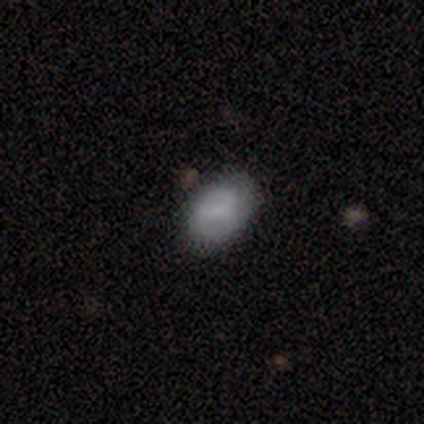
Volunteers were most divided on "merging": none: 75%, minor disturbance: 25%, major disturbance: 0%, merger: 0%. More confident: how rounded — in between (100%); smooth or featured — smooth (80%).